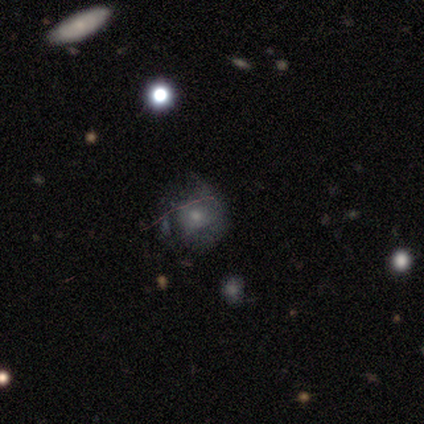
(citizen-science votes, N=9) Morphology: type=smooth (44%, tied with featured or disk); roundness=round (50%, tied with in between); merging=none (75%).